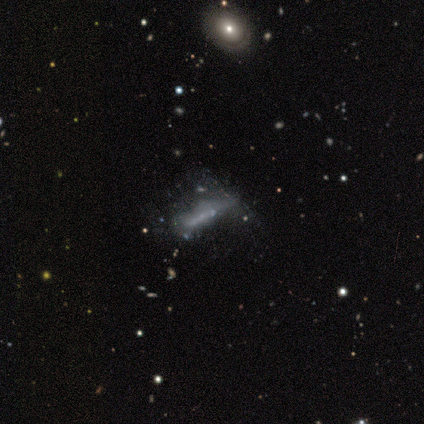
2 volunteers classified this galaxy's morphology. Smooth or featured? 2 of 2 (100%) said featured or disk. Edge-on disk? 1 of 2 (50%, tied with no) said yes. Edge-on bulge? 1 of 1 (100%) said none. Merging? 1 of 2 (50%, tied with merger) said major disturbance.